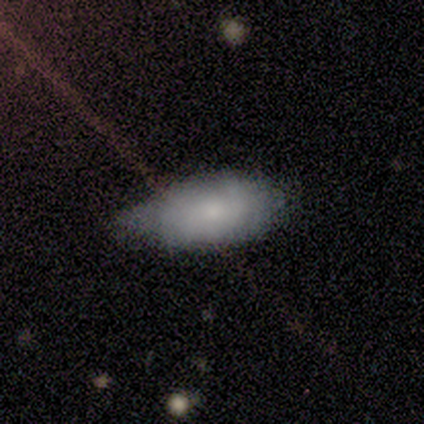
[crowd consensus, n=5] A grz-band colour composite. It shows a smooth galaxy with no disk features (100%) that is in between round and cigar-shaped (100%). Merging: none (60%).